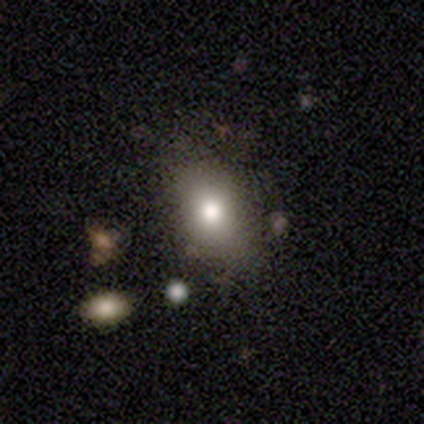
smooth 80%, star or artifact 20%, featured or disk 0%. Down the decision tree: how rounded — in between (100%); merging — none (100%).